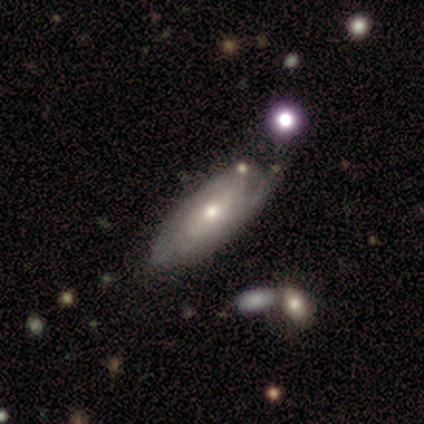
This appears to be a featured or disk galaxy (51%) with no bar (83%), 2 (40%, tied with can't tell) tight (73%) spiral arms (83%) and a moderate central bulge (83%). Merging: none (49%).